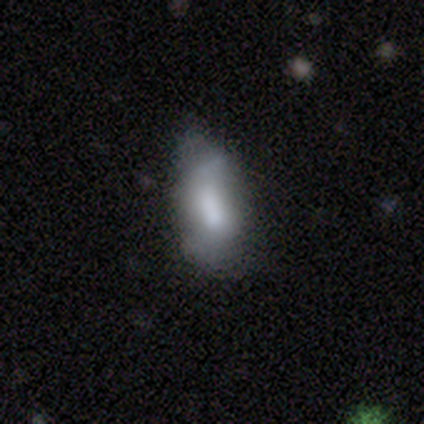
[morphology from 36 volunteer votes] Volunteers were most divided on "merging": none: 47%, minor disturbance: 38%, major disturbance: 15%, merger: 0%. More confident: how rounded — in between (84%); smooth or featured — smooth (69%).